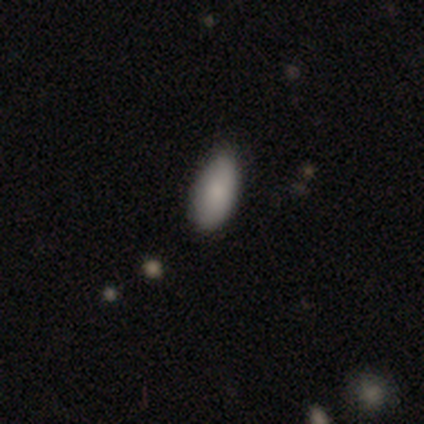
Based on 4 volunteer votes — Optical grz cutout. It shows a smooth galaxy with no disk features (100%) that is in between round and cigar-shaped (50%, tied with cigar-shaped). Merging: none (75%).